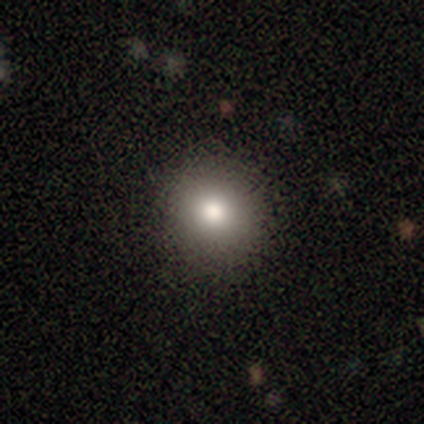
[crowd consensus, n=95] Q: Smooth or featured?
A: smooth (81%); runner-up: star or artifact (12%)
Q: How rounded?
A: round (91%); runner-up: in between (9%)
Q: Merging?
A: none (92%); runner-up: minor disturbance (7%)